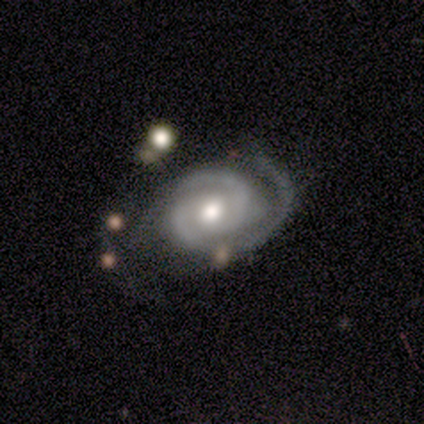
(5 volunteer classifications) Smooth or featured? featured or disk (80%)
Edge-on disk? no (100%)
Bar? no (75%)
Spiral arms? yes (100%)
Spiral winding? medium (75%)
Spiral arm count? 2 (50%)
Bulge size? small (75%)
Merging? none (50%, tied with minor disturbance)